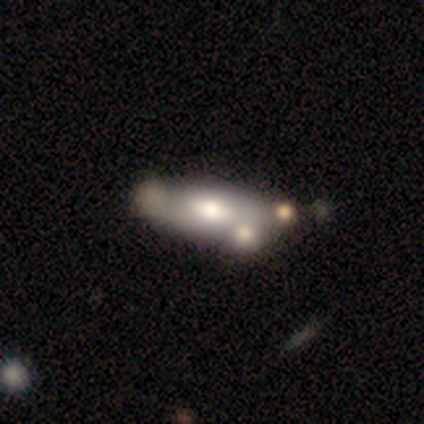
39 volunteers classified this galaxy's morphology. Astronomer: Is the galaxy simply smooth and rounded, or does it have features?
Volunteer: smooth — 46% (runner-up: featured or disk, 44%).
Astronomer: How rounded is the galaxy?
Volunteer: in between — 78%.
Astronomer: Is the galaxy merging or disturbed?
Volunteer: none — 40% (runner-up: merger, 34%).